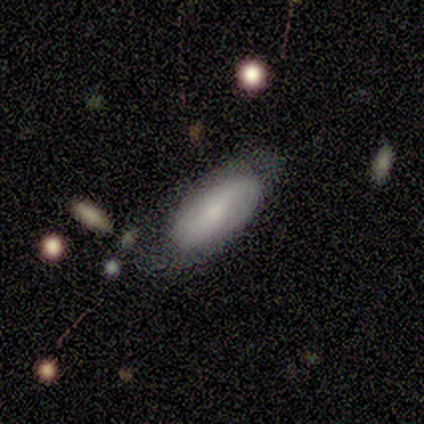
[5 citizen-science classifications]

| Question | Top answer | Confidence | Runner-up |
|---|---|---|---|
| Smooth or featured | smooth | 80% | featured or disk (20%) |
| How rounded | in between | 75% | cigar-shaped (25%) |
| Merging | none | 60% | minor disturbance (40%) |